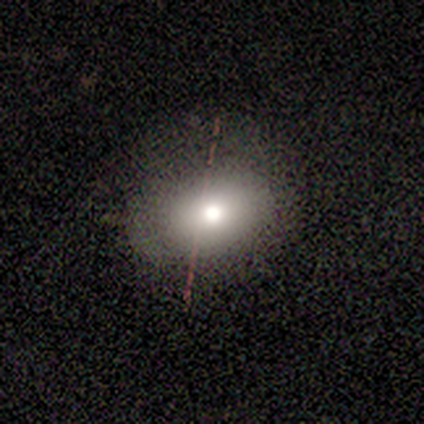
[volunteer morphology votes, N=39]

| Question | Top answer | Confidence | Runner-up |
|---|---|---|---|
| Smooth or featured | smooth | 64% | featured or disk (21%) |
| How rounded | in between | 52% | round (44%) |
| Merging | none | 82% | major disturbance (9%) |